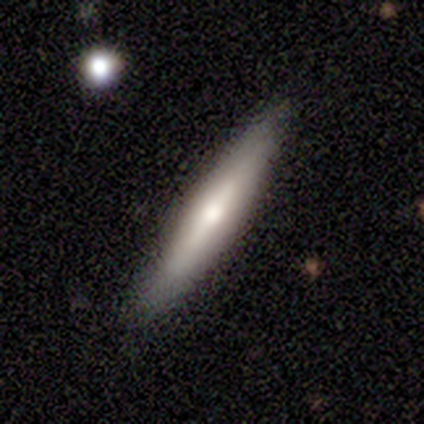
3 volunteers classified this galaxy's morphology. smooth-or-featured: featured or disk: 67% | star or artifact: 33% | smooth: 0%
  disk-edge-on: yes: 50% (tied) | no: 50% (tied)
    edge-on-bulge: rounded: 100% | boxy: 0% | none: 0%
  merging: none: 100% | minor disturbance: 0% | major disturbance: 0% | merger: 0%